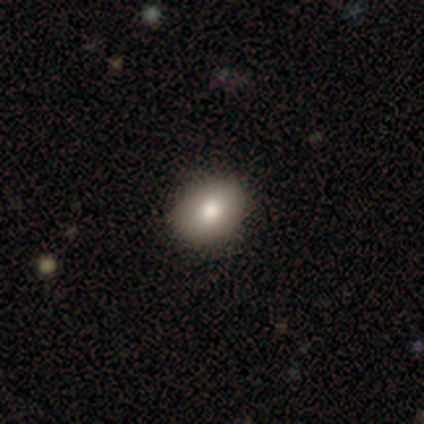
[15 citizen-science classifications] smooth_or_featured: smooth (p=0.73) [alt: star or artifact p=0.20]
how_rounded: in between (p=0.64) [alt: round p=0.36]
merging: none (p=0.75) [alt: minor disturbance p=0.25]